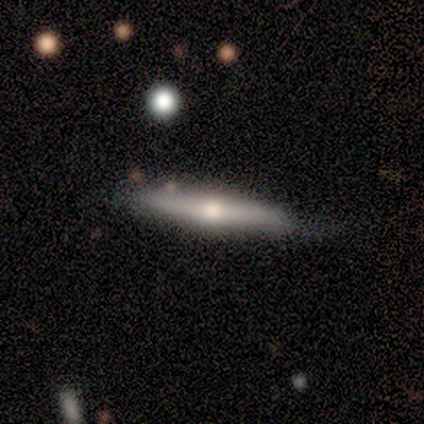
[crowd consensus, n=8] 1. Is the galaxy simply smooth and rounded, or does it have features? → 50% smooth (tied), 50% featured or disk (tied), 0% star or artifact.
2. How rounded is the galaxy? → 100% cigar-shaped, 0% round, 0% in between.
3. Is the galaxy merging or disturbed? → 62% none, 38% minor disturbance, 0% major disturbance, 0% merger.